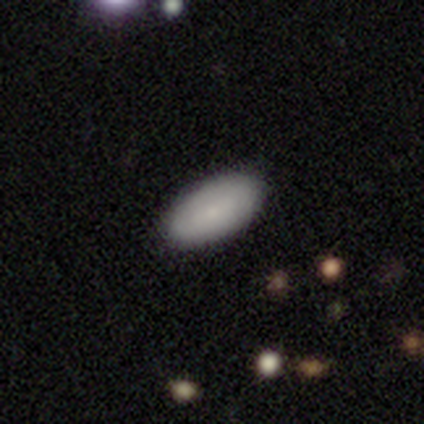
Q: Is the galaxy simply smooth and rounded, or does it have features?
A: smooth — 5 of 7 (71%).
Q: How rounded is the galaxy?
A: in between — 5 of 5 (100%).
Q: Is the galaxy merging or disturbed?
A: none — 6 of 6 (100%).